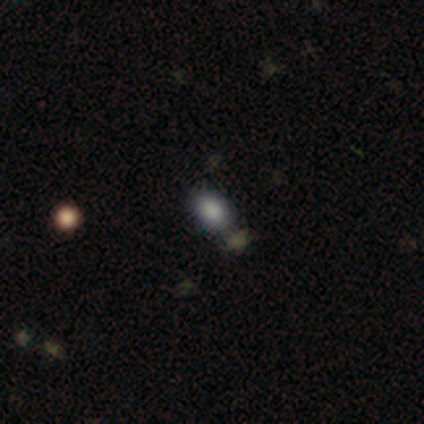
This appears to be a smooth galaxy with no disk features (100%) that is in between round and cigar-shaped (100%). Merging: minor disturbance (100%).